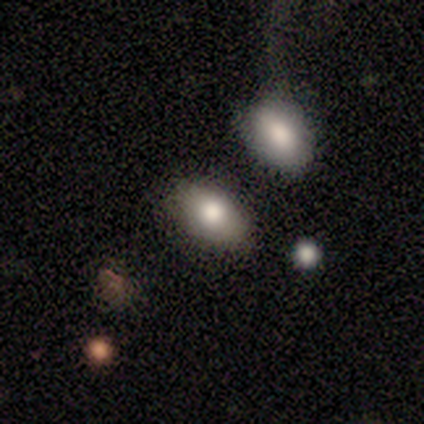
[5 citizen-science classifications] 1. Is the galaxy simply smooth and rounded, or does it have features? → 100% smooth, 0% featured or disk, 0% star or artifact.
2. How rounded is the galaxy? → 100% in between, 0% round, 0% cigar-shaped.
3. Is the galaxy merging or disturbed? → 60% none, 40% merger, 0% minor disturbance, 0% major disturbance.